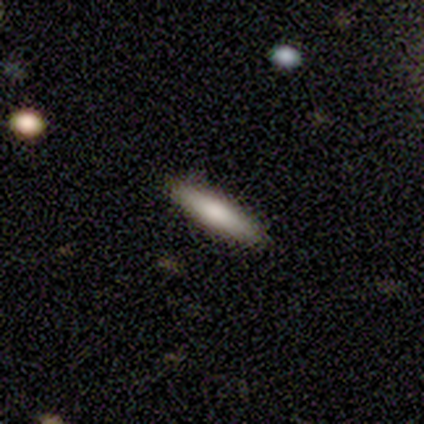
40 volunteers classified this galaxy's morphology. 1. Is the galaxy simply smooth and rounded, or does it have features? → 75% smooth, 18% featured or disk, 8% star or artifact.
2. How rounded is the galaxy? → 87% cigar-shaped, 13% in between, 0% round.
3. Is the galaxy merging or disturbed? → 89% none, 11% minor disturbance, 0% major disturbance, 0% merger.